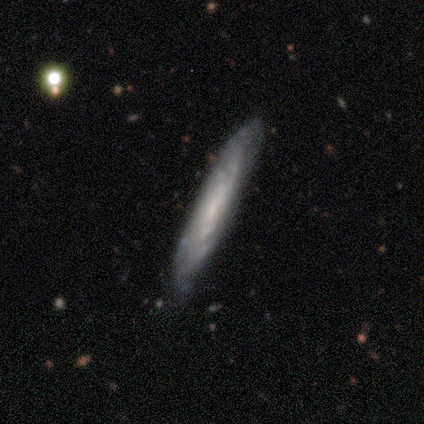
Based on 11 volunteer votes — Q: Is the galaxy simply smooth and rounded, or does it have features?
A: featured or disk — 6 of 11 (55%).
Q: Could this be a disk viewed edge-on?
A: no — 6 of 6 (100%).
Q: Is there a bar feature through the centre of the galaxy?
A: no — 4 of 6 (67%).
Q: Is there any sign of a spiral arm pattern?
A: yes — 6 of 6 (100%).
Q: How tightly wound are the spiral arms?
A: tight — 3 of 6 (50%).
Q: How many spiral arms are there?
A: can't tell — 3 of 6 (50%).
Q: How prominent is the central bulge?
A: moderate — 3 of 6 (50%).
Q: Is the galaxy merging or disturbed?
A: none — 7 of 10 (70%).